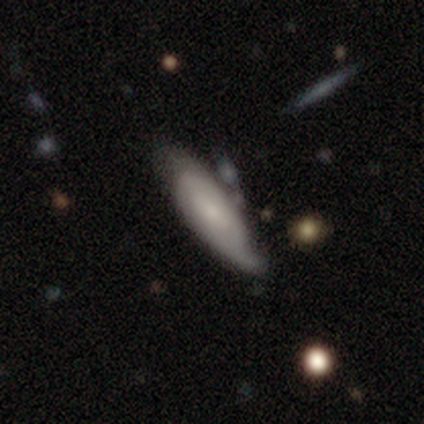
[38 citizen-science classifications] Overall: smooth (55%; featured or disk 45%). How rounded: in between (71%). Merging: minor disturbance (63%; none 32%).